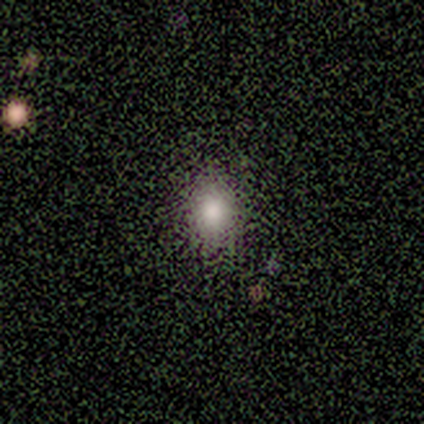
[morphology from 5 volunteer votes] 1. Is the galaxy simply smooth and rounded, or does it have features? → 80% smooth, 20% star or artifact, 0% featured or disk.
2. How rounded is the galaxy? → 75% round, 25% in between, 0% cigar-shaped.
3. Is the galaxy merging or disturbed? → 100% none, 0% minor disturbance, 0% major disturbance, 0% merger.